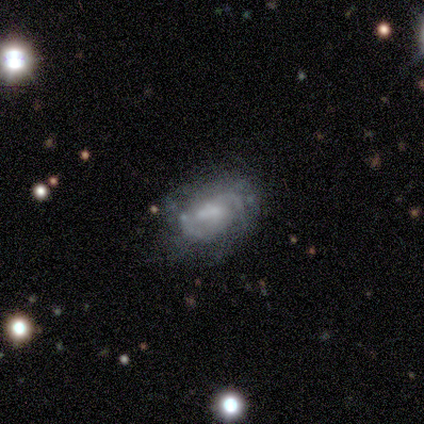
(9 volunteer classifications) Morphology: type=featured or disk (67%); edge-on=no (100%); bar=no (67%); spiral arms=yes (83%); winding=tight (80%); arm count=2 (60%); bulge=small (50%); merging=none (62%).